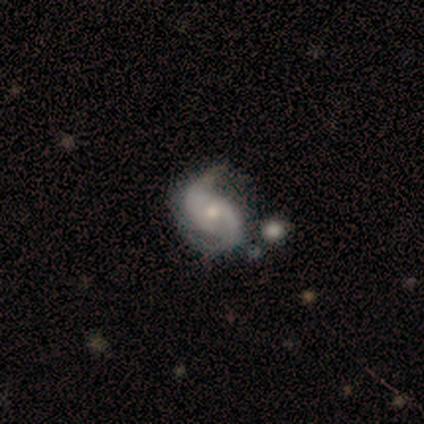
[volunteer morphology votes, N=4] Smooth or featured?
  - featured or disk: 50% *
  - smooth: 25%
  - star or artifact: 25%
Edge-on disk?
  - no: 100% *
  - yes: 0%
Bar?
  - weak: 50% * (tied)
  - no: 50% * (tied)
  - strong: 0%
Spiral arms?
  - yes: 100% *
  - no: 0%
Spiral winding?
  - medium: 50% * (tied)
  - loose: 50% * (tied)
  - tight: 0%
Spiral arm count?
  - 2: 100% *
  - 1: 0%
  - 3: 0%
  - 4: 0%
  - more than 4: 0%
  - can't tell: 0%
Bulge size?
  - moderate: 50% * (tied)
  - small: 50% * (tied)
  - dominant: 0%
  - large: 0%
  - none: 0%
Merging?
  - minor disturbance: 67% *
  - none: 33%
  - major disturbance: 0%
  - merger: 0%